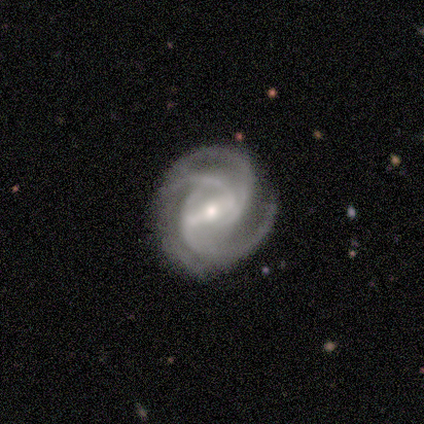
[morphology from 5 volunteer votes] This is clearly a featured or disk galaxy (100%). It is clearly not viewed edge-on (100%). Bar: likely strong (60%). Spiral arm pattern: clearly yes (100%). Spiral arm count: marginally 3 (40%, tied with 4). Spiral winding: likely tight (60%). Central bulge: clearly small (80%). Merging: likely none (60%).